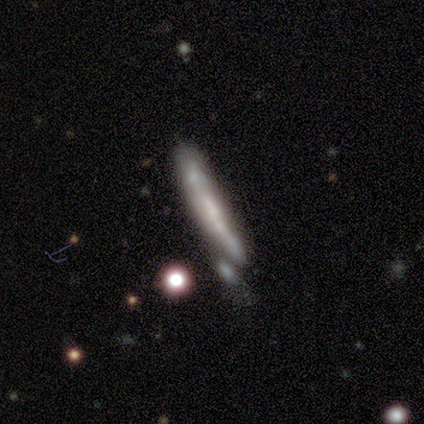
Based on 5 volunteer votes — Smooth or featured? featured or disk (60%)
Edge-on disk? yes (67%)
Edge-on bulge? none (50%, tied with rounded)
Merging? none (50%)